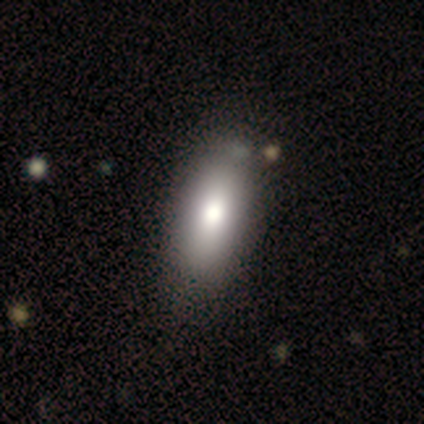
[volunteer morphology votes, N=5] smooth 100%, featured or disk 0%, star or artifact 0%. Down the decision tree: how rounded — in between (100%); merging — none (100%).